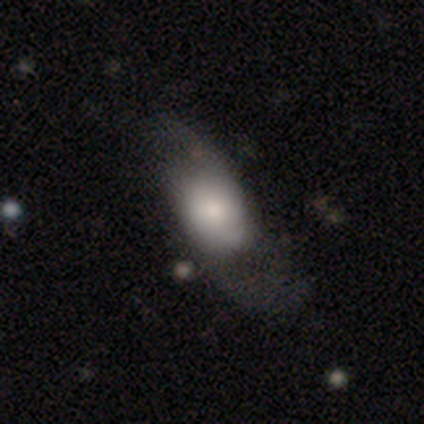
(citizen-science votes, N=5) smooth_or_featured: smooth (p=0.40) [tied with: featured or disk p=0.40]
how_rounded: in between (p=1.00)
merging: minor disturbance (p=0.50) [tied with: major disturbance p=0.50]